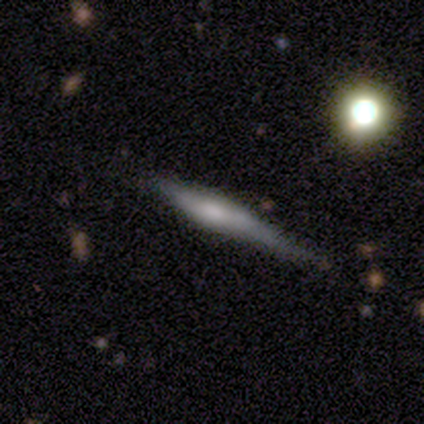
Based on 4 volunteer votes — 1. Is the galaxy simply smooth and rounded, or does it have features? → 75% featured or disk, 25% smooth, 0% star or artifact.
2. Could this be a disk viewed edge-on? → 100% yes, 0% no.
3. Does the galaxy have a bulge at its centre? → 67% rounded, 33% boxy, 0% none.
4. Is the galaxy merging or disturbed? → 75% none, 25% major disturbance, 0% minor disturbance, 0% merger.